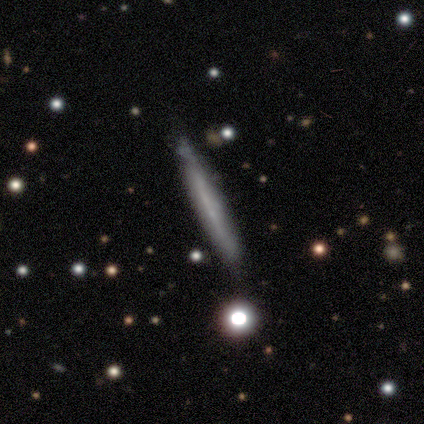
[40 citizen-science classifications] smooth 50% (tied), featured or disk 50% (tied), star or artifact 0%. Down the decision tree: how rounded — cigar-shaped (100%); merging — none (45%).